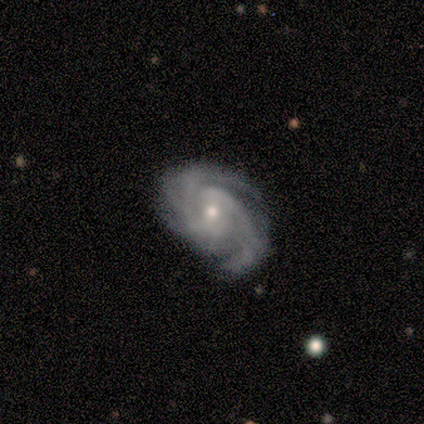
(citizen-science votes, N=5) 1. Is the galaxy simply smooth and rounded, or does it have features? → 60% featured or disk, 40% star or artifact, 0% smooth.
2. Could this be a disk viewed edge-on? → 100% no, 0% yes.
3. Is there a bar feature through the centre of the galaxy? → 67% no, 33% weak, 0% strong.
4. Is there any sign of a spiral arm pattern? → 100% yes, 0% no.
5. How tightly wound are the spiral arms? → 67% tight, 33% medium, 0% loose.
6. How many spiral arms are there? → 67% 3, 33% 4, 0% 1, 0% 2, 0% more than 4, 0% can't tell.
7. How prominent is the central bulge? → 67% moderate, 33% small, 0% dominant, 0% large, 0% none.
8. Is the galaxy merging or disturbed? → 100% none, 0% minor disturbance, 0% major disturbance, 0% merger.